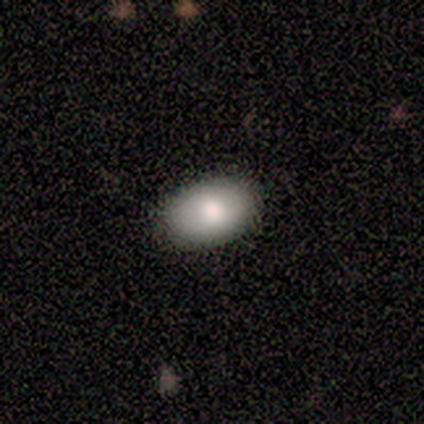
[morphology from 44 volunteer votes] type=smooth (80%); roundness=in between (97%); merging=none (89%).